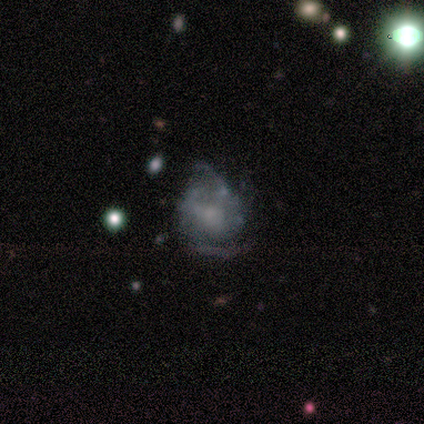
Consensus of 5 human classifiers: Smooth or featured: featured or disk — 80% (star or artifact — 20%)
Edge-on disk: no — 100%
Bar: no — 75% (weak — 25%)
Spiral arms: yes — 100%
Spiral winding: tight — 50% (medium — 25%)
Spiral arm count: can't tell — 50% (2 — 25%)
Bulge size: moderate — 50% (tied with none — 50%)
Merging: none — 50% (tied with minor disturbance — 50%)